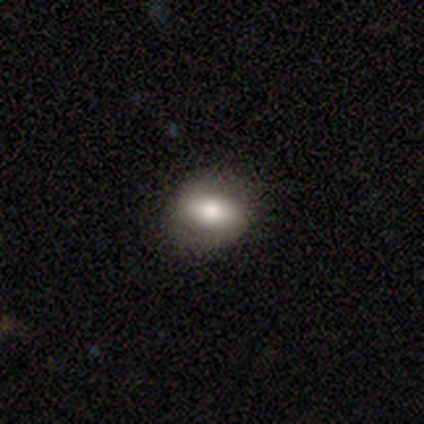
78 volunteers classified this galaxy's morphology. A smooth galaxy with no disk features (67%) that is in between round and cigar-shaped (63%).

Vote fractions:
- Smooth or featured? smooth: 67% / featured or disk: 29% / star or artifact: 4%
- How rounded? in between: 63% / round: 37% / cigar-shaped: 0%
- Merging? none: 52% / minor disturbance: 3% / major disturbance: 1% / merger: 0%